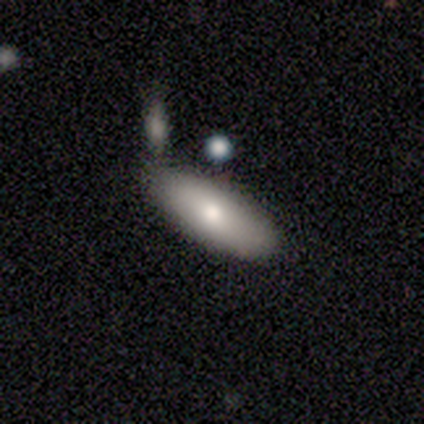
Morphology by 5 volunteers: Smooth or featured: smooth — 60% (featured or disk — 20%)
How rounded: in between — 67% (cigar-shaped — 33%)
Merging: none — 75% (merger — 25%)